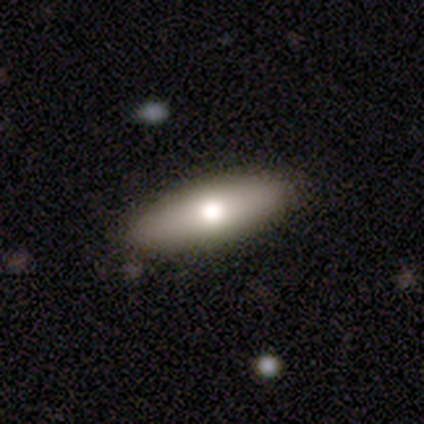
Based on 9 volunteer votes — This appears to be a smooth galaxy with no disk features (100%) that is cigar-shaped (56%). Merging: none (78%).